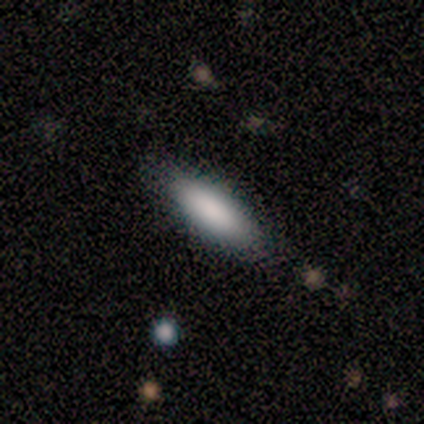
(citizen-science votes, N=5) smooth_or_featured: smooth (p=1.00)
how_rounded: in between (p=0.60) [alt: cigar-shaped p=0.40]
merging: none (p=1.00)